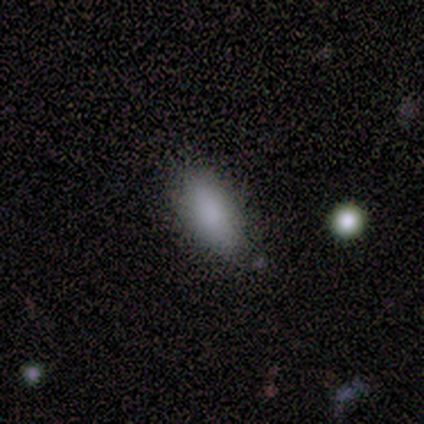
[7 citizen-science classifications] Smooth or featured?
  - smooth: 100% *
  - featured or disk: 0%
  - star or artifact: 0%
How rounded?
  - in between: 86% *
  - cigar-shaped: 14%
  - round: 0%
Merging?
  - none: 86% *
  - minor disturbance: 14%
  - major disturbance: 0%
  - merger: 0%